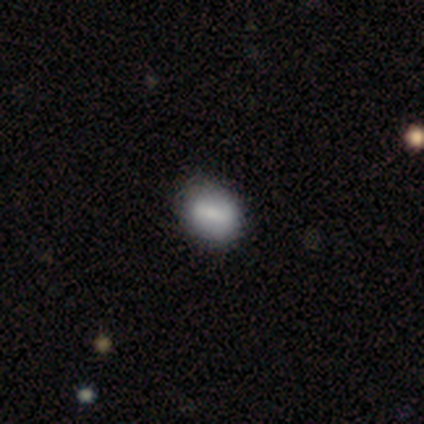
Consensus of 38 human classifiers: A smooth galaxy with no disk features (71%) that is in between round and cigar-shaped (56%). Merging: none (78%).